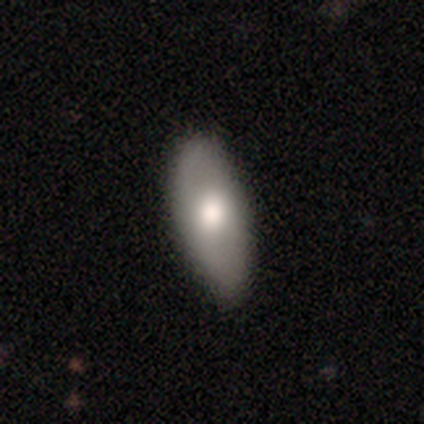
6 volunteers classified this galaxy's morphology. smooth-or-featured: smooth: 83% | featured or disk: 17% | star or artifact: 0%
  how-rounded: in between: 100% | round: 0% | cigar-shaped: 0%
  merging: none: 100% | minor disturbance: 0% | major disturbance: 0% | merger: 0%